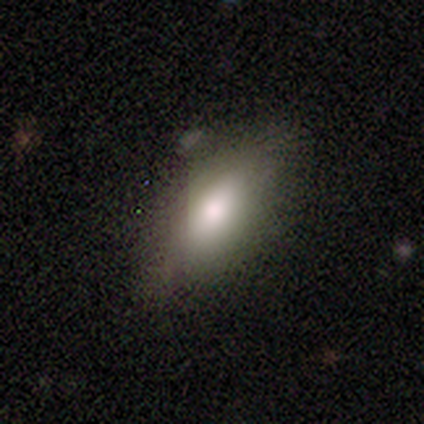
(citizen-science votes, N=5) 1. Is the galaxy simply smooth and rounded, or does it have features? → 60% smooth, 40% featured or disk, 0% star or artifact.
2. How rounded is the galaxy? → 100% in between, 0% round, 0% cigar-shaped.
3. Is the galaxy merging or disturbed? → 100% none, 0% minor disturbance, 0% major disturbance, 0% merger.